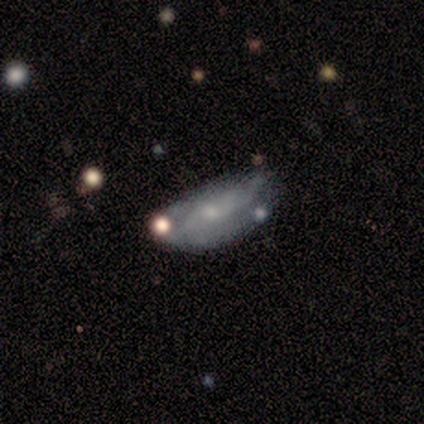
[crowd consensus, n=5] Q: Smooth or featured?
A: smooth (80%); runner-up: featured or disk (20%)
Q: How rounded?
A: in between (100%)
Q: Merging?
A: minor disturbance (60%); runner-up: none (20%)